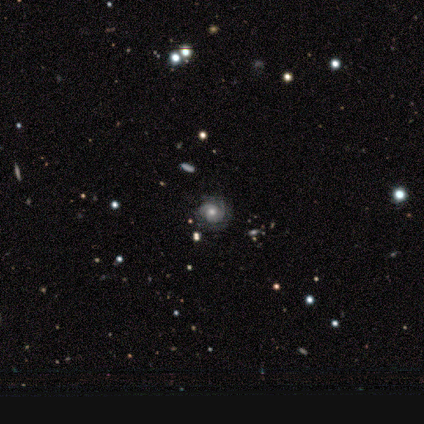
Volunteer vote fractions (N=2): Consensus on every question: smooth or featured — featured or disk (100%); edge-on disk — no (100%); bar — no (100%); spiral arms — yes (100%); spiral winding — tight (100%); spiral arm count — 2 (100%); bulge size — moderate (100%); merging — none (100%).